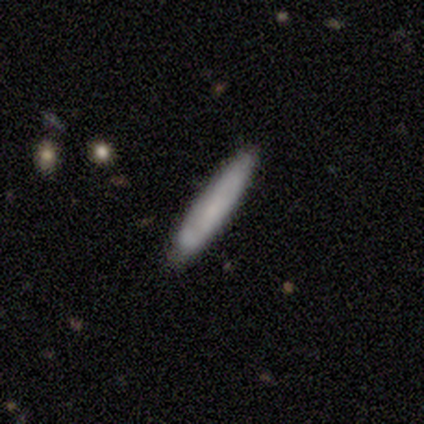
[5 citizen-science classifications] A featured or disk galaxy (60%) viewed edge-on (67%) with no central bulge (100%). Merging: none (80%).